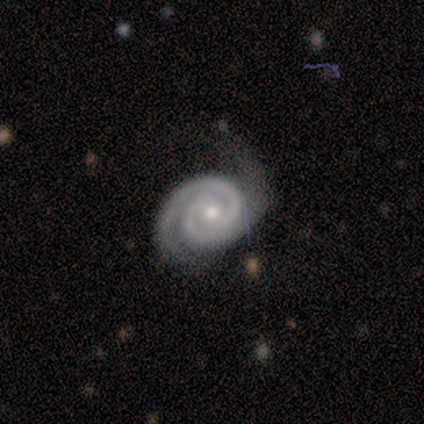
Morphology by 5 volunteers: Overall: featured or disk (100%). Edge-on disk: no (100%). Bar: no (80%). Spiral arms: yes (100%). Spiral arm count: 2 (100%). Spiral winding: medium (60%; tight 40%). Bulge size: moderate (80%). Merging: none (80%).